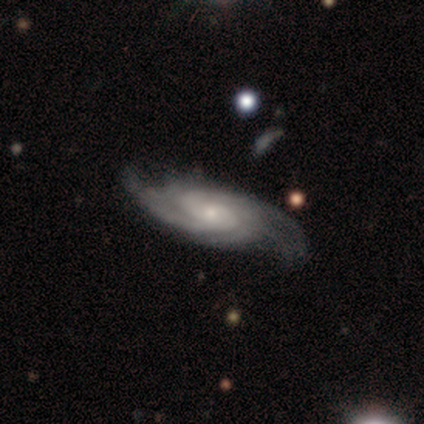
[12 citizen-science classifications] smooth-or-featured: featured or disk: 92% | star or artifact: 8% | smooth: 0%
  disk-edge-on: no: 91% | yes: 9%
    bar: no: 70% | weak: 30% | strong: 0%
    has-spiral-arms: yes: 100% | no: 0%
      spiral-winding: tight: 70% | loose: 20% | medium: 10%
      spiral-arm-count: 4: 30% (tied) | can't tell: 30% (tied) | 2: 20% | 3: 20% | 1: 0% | more than 4: 0%
    bulge-size: small: 80% | moderate: 20% | dominant: 0% | large: 0% | none: 0%
  merging: none: 55% | minor disturbance: 36% | major disturbance: 9% | merger: 0%